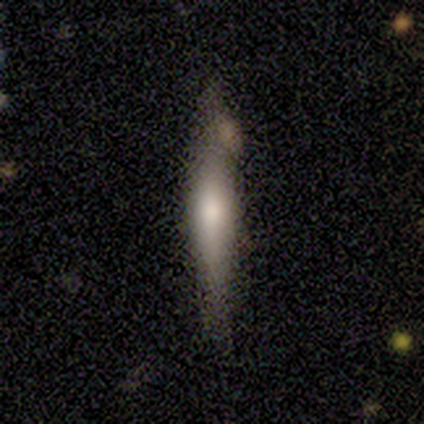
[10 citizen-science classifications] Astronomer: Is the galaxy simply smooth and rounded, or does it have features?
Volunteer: featured or disk — 60% (runner-up: smooth, 40%).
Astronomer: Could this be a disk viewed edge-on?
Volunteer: yes — 83%.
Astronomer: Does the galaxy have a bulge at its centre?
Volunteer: rounded — 60%.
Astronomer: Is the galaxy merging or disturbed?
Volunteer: none — 70%.